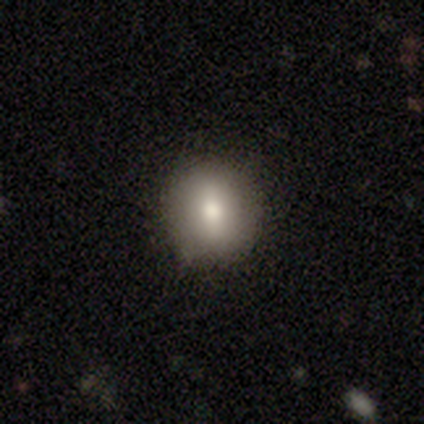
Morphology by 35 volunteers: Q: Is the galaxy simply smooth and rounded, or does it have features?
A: smooth — 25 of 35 (71%).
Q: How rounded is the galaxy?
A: round — 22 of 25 (88%).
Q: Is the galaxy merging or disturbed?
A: none — 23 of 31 (74%).